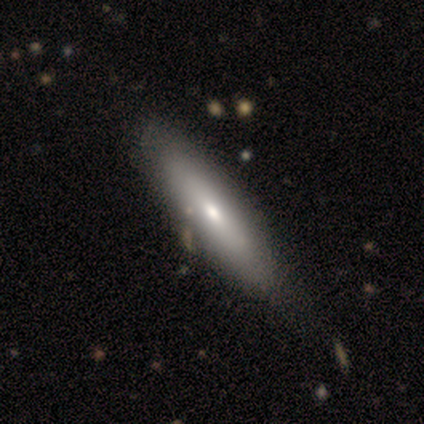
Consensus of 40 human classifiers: Smooth or featured?
  - smooth: 62% *
  - featured or disk: 32%
  - star or artifact: 5%
How rounded?
  - cigar-shaped: 56% *
  - in between: 44%
  - round: 0%
Merging?
  - none: 47% *
  - minor disturbance: 21%
  - merger: 5%
  - major disturbance: 0%